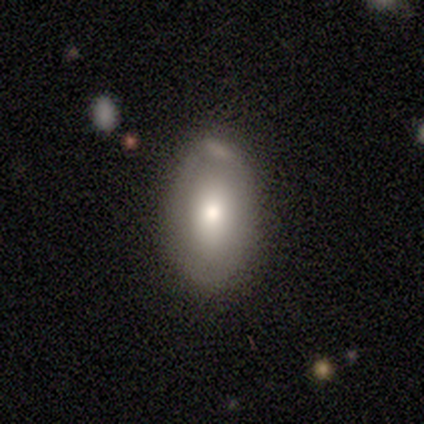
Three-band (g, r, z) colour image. It shows a smooth galaxy with no disk features (75%) that is in between round and cigar-shaped (100%). Merging: none (25%, tied with minor disturbance, major disturbance and merger).